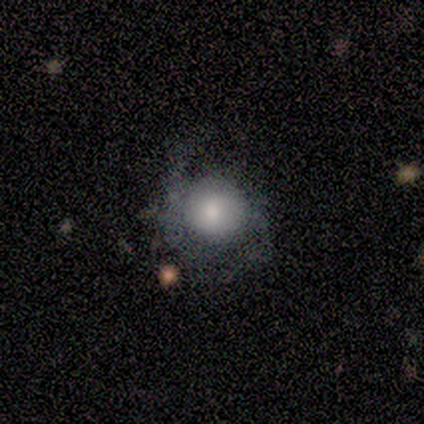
Overall: featured or disk (65%). Edge-on disk: no (100%). Bar: no (81%). Spiral arms: yes (81%). Spiral arm count: 2 (81%). Spiral winding: loose (48%; medium 43%). Bulge size: moderate (42%; large 27%). Merging: none (56%; major disturbance 28%).